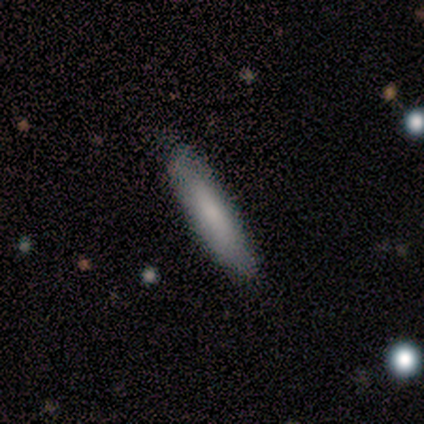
Smooth or featured? smooth (100%)
How rounded? cigar-shaped (80%)
Merging? none (100%)